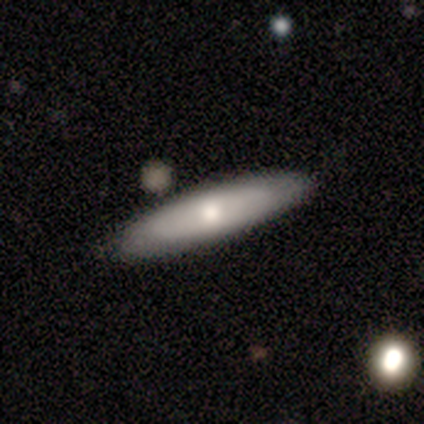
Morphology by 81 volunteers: Smooth or featured: smooth — 54% (featured or disk — 44%)
How rounded: cigar-shaped — 64% (in between — 36%)
Merging: none — 44% (merger — 8%)